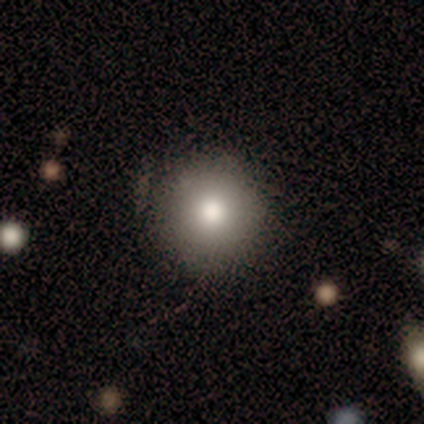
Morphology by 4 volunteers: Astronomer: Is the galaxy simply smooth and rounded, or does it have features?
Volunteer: smooth — 75%.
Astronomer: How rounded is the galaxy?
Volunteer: round — 100%.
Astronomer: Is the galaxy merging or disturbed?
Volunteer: none — 100%.